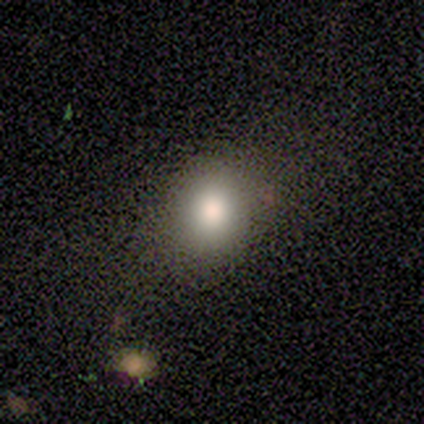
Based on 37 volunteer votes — smooth-or-featured: smooth: 76% | featured or disk: 14% | star or artifact: 11%
  how-rounded: in between: 54% | round: 46% | cigar-shaped: 0%
  merging: none: 55% | minor disturbance: 15% | major disturbance: 6% | merger: 0%